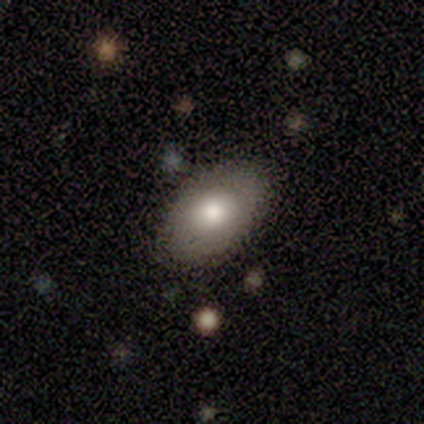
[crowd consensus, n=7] Q: Smooth or featured?
A: smooth (86%); runner-up: star or artifact (14%)
Q: How rounded?
A: in between (83%); runner-up: round (17%)
Q: Merging?
A: none (100%)